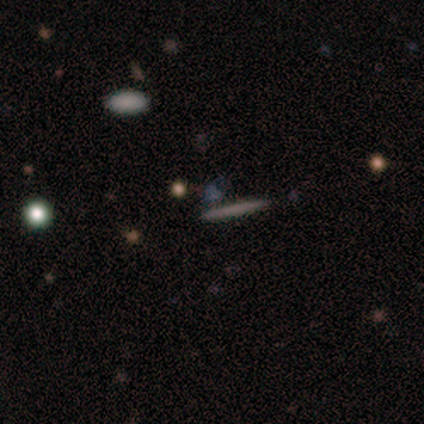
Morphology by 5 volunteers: This appears to be a smooth galaxy with no disk features (60%) that is cigar-shaped (67%). Merging: none (75%).